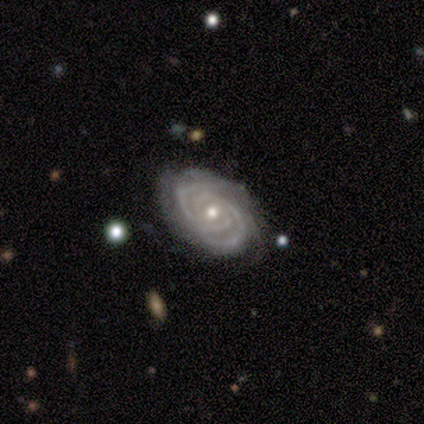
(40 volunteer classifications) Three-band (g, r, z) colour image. It shows a featured or disk galaxy (92%) with no bar (83%), 2 (60%) tight (89%) spiral arms (100%) and a moderate central bulge (71%). Merging: none (77%).